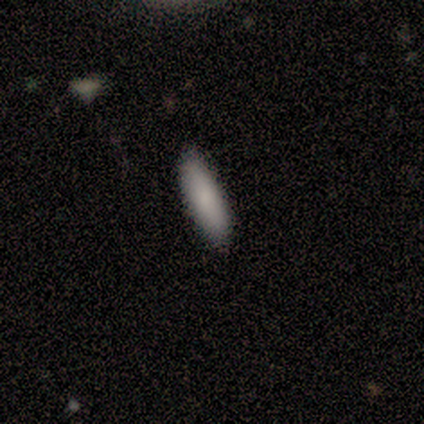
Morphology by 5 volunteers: smooth-or-featured: smooth: 100% | featured or disk: 0% | star or artifact: 0%
  how-rounded: cigar-shaped: 60% | in between: 40% | round: 0%
  merging: none: 100% | minor disturbance: 0% | major disturbance: 0% | merger: 0%